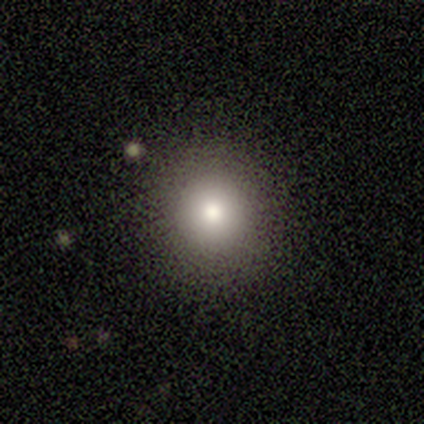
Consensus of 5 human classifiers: Smooth or featured: smooth — 80% (star or artifact — 20%)
How rounded: round — 100%
Merging: none — 100%